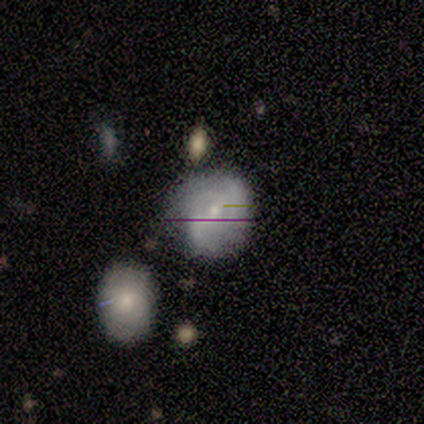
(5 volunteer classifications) Smooth or featured? 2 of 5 (40%, tied with featured or disk) said smooth. How rounded? 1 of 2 (50%, tied with in between) said round. Merging? 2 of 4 (50%, tied with minor disturbance) said none.